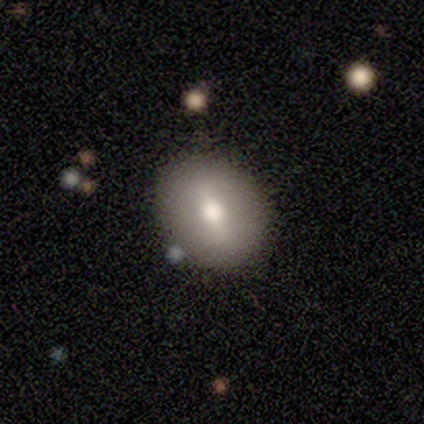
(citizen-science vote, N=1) Consensus on every question: smooth or featured — smooth (100%); how rounded — in between (100%); merging — none (100%).